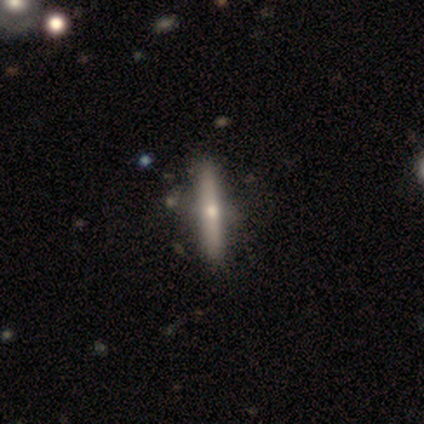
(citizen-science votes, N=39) A featured or disk galaxy (69%) viewed edge-on (96%) with a rounded central bulge (73%).

Vote fractions:
- Smooth or featured? featured or disk: 69% / smooth: 28% / star or artifact: 3%
- Edge-on disk? yes: 96% / no: 4%
- Edge-on bulge? rounded: 73% / none: 23% / boxy: 4%
- Merging? none: 55% / minor disturbance: 11% / merger: 3% / major disturbance: 0%